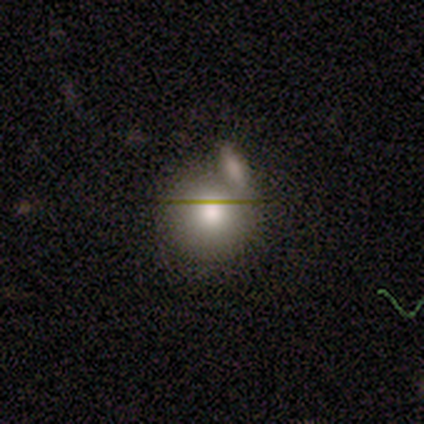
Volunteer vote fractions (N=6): Q: Smooth or featured?
A: smooth (83%); runner-up: star or artifact (17%)
Q: How rounded?
A: round (80%); runner-up: in between (20%)
Q: Merging?
A: none (60%); runner-up: minor disturbance (20%)